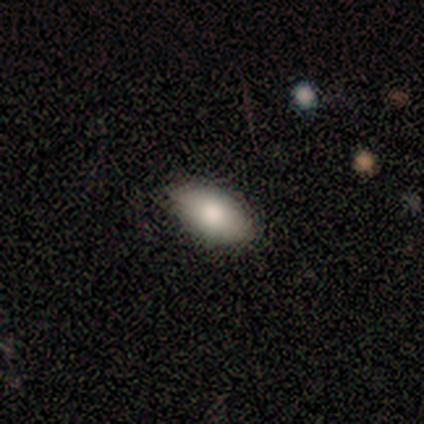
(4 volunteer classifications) Volunteers were most divided on "merging": none: 75%, minor disturbance: 25%, major disturbance: 0%, merger: 0%. More confident: smooth or featured — smooth (100%); how rounded — in between (100%).